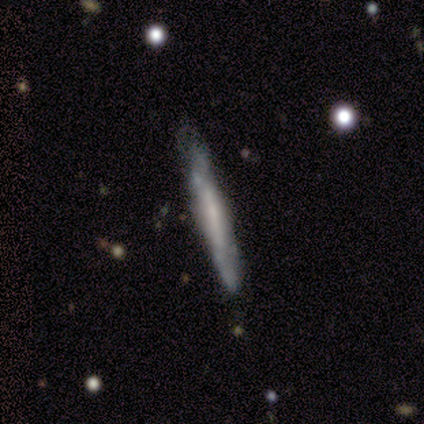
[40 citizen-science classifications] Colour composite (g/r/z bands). It shows a featured or disk galaxy (75%) viewed edge-on (87%) with no central bulge (58%). Merging: none (60%).